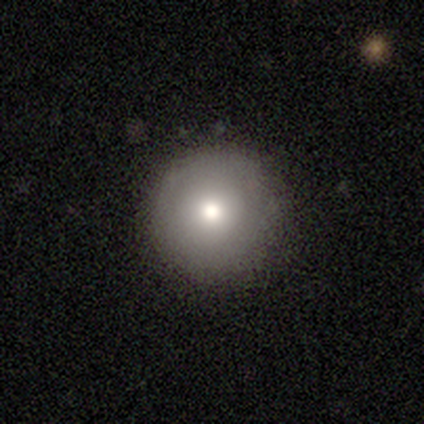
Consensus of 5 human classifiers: smooth-or-featured: smooth: 80% | featured or disk: 20% | star or artifact: 0%
  how-rounded: round: 100% | in between: 0% | cigar-shaped: 0%
  merging: none: 100% | minor disturbance: 0% | major disturbance: 0% | merger: 0%